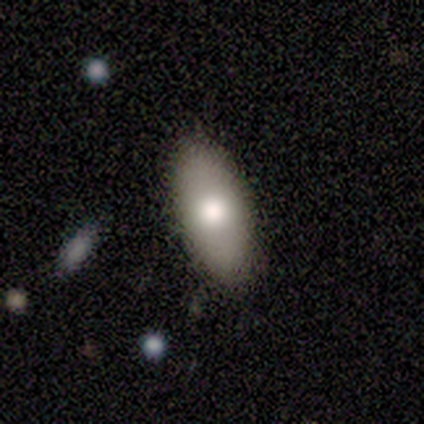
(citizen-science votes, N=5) smooth_or_featured: smooth (p=1.00)
how_rounded: in between (p=0.80) [alt: cigar-shaped p=0.20]
merging: none (p=1.00)